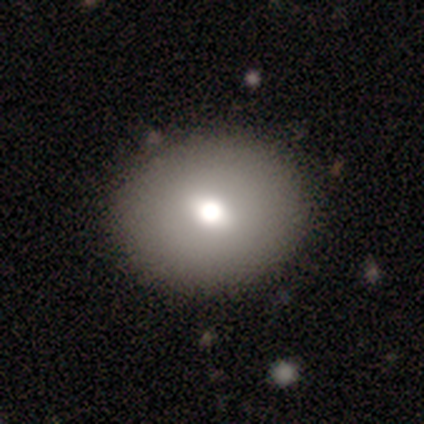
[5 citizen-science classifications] A smooth galaxy with no disk features (60%) that is round (100%). Merging: none (100%).